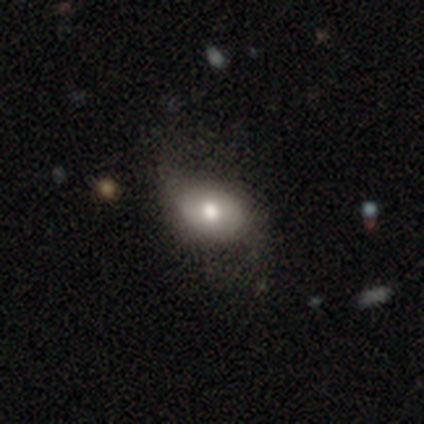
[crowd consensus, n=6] Volunteers were most divided on "smooth or featured": smooth: 67%, featured or disk: 33%, star or artifact: 0%. More confident: how rounded — in between (100%); merging — none (67%).